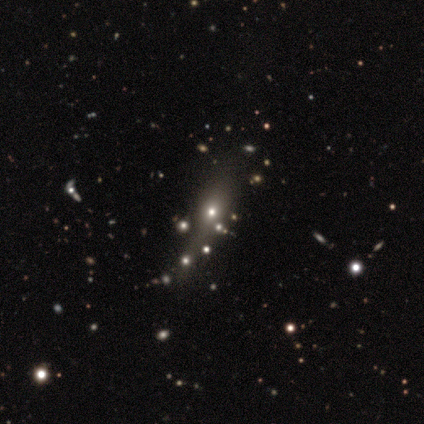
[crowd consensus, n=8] Overall: smooth (50%; featured or disk 25%). How rounded: in between (75%). Merging: none (67%; minor disturbance 33%).